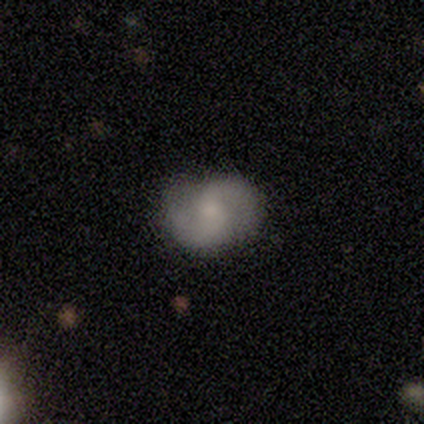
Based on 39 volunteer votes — featured or disk 82%, smooth 18%, star or artifact 0%. Down the decision tree: edge-on disk — no (97%); bar — no (58%); spiral arms — yes (90%); spiral arm count — 2 (89%); spiral winding — medium (57%); bulge size — moderate (45%); merging — none (44%).